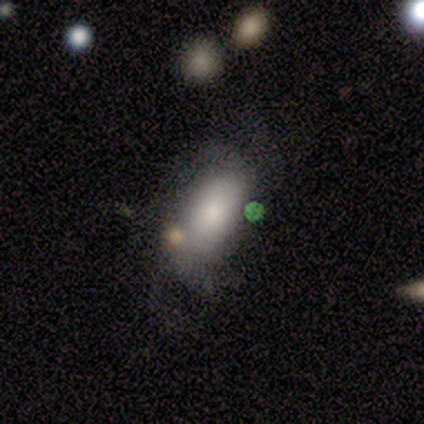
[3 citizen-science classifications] Morphology: type=smooth (100%); roundness=in between (67%); merging=none (67%).